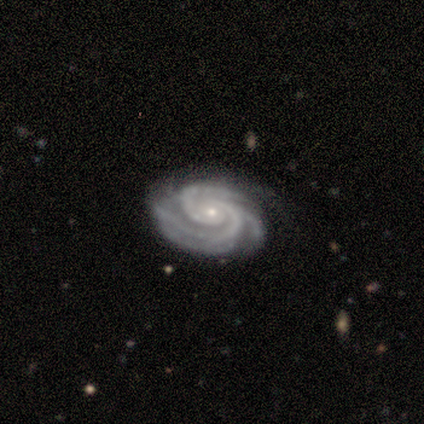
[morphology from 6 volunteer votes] This is clearly a featured or disk galaxy (100%). It is clearly not viewed edge-on (100%). Bar: clearly no (83%). Spiral arm pattern: clearly yes (100%). Spiral arm count: possibly 3 (50%). Spiral winding: clearly tight (83%). Central bulge: clearly small (83%). Merging: likely none (67%).